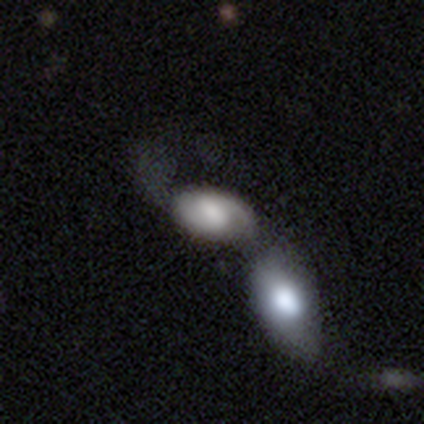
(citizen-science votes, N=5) Smooth or featured? 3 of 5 (60%) said smooth. How rounded? 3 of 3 (100%) said in between. Merging? 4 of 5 (80%) said merger.